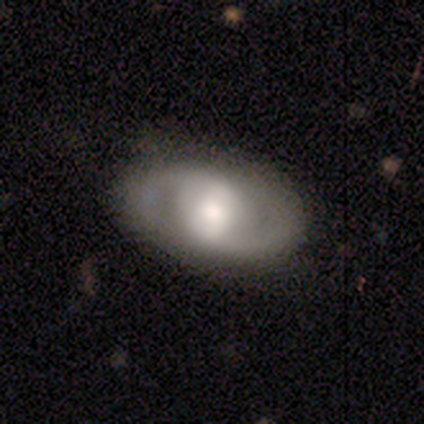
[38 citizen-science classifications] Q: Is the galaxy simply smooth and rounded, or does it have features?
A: featured or disk — 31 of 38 (82%).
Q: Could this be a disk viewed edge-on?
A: no — 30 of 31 (97%).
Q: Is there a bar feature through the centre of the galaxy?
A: weak — 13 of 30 (43%).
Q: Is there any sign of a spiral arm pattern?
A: yes — 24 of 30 (80%).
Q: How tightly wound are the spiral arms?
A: medium — 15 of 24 (62%).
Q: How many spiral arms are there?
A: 2 — 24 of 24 (100%).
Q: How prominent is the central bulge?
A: moderate — 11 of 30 (37%).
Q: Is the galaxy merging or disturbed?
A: none — 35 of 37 (95%).